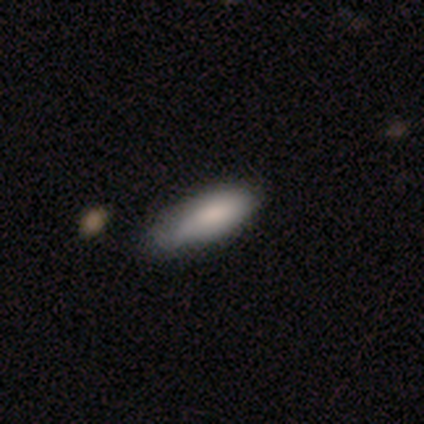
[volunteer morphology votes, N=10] smooth 80%, featured or disk 20%, star or artifact 0%. Down the decision tree: how rounded — cigar-shaped (62%); merging — none (50%).